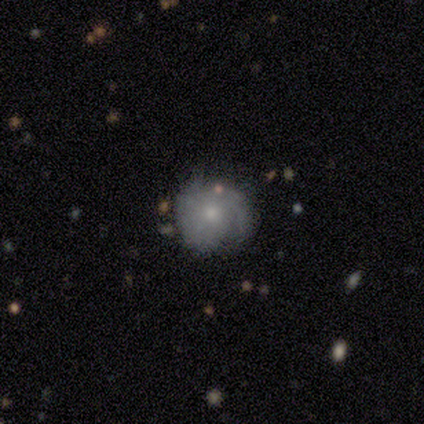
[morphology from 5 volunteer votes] This appears to be a featured or disk galaxy (60%) with no bar (100%), tight (33%, tied with medium and loose) spiral arms (100%) and a moderate central bulge (67%). Merging: none (60%).